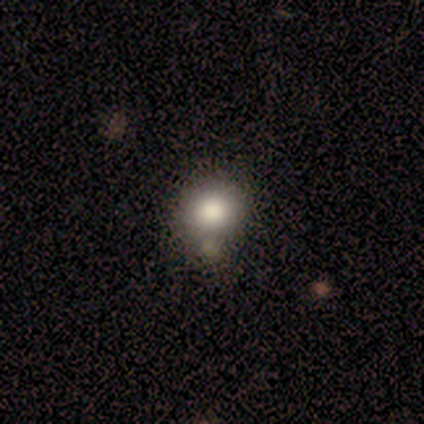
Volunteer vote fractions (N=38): smooth-or-featured: smooth: 79% | featured or disk: 16% | star or artifact: 5%
  how-rounded: round: 73% | in between: 27% | cigar-shaped: 0%
  merging: none: 61% | minor disturbance: 19% | merger: 14% | major disturbance: 6%